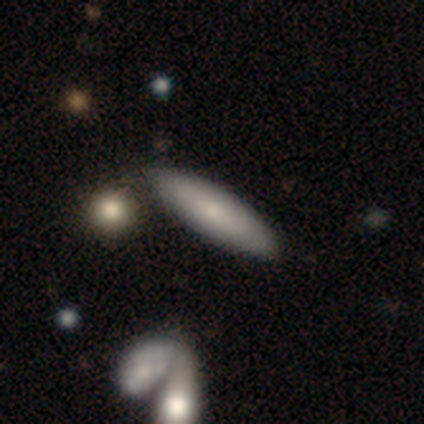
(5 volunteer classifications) Smooth or featured?
  - smooth: 60% *
  - featured or disk: 40%
  - star or artifact: 0%
How rounded?
  - cigar-shaped: 100% *
  - round: 0%
  - in between: 0%
Merging?
  - none: 80% *
  - merger: 20%
  - minor disturbance: 0%
  - major disturbance: 0%